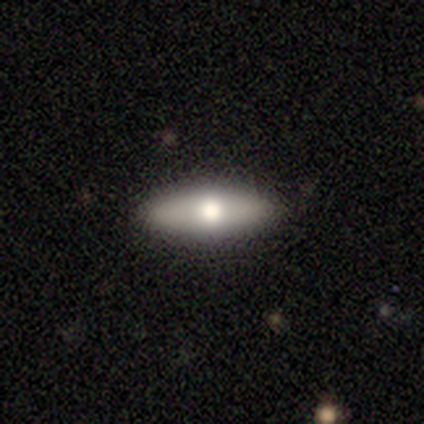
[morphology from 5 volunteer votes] Smooth or featured: smooth — 100%
How rounded: in between — 60% (cigar-shaped — 40%)
Merging: none — 100%